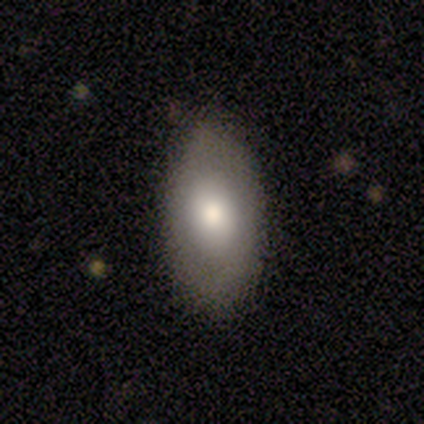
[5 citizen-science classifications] Smooth or featured? smooth (100%)
How rounded? in between (100%)
Merging? none (80%)